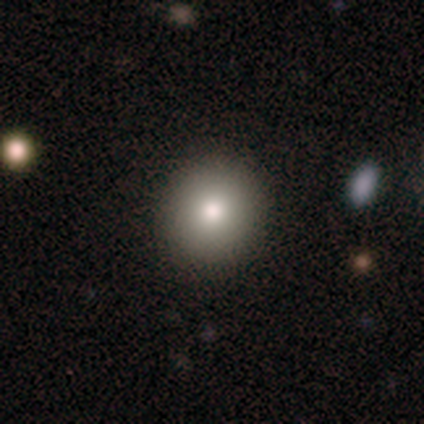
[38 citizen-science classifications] Volunteers were most divided on "smooth or featured": smooth: 79%, featured or disk: 11%, star or artifact: 11%. More confident: merging — none (97%); how rounded — round (90%).